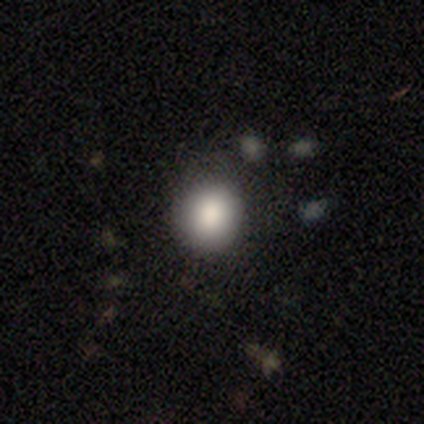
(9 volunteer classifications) Volunteers were most divided on "merging": none: 78%, minor disturbance: 11%, major disturbance: 11%, merger: 0%. More confident: smooth or featured — smooth (100%); how rounded — round (100%).